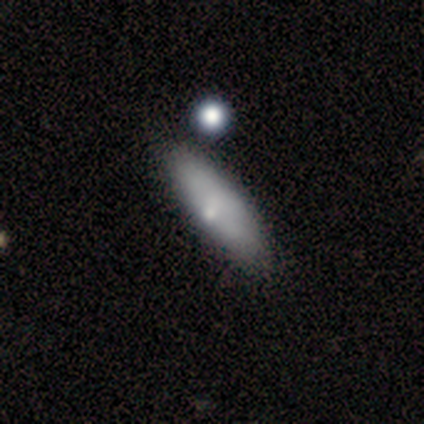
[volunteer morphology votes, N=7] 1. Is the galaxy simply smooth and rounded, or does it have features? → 86% smooth, 14% star or artifact, 0% featured or disk.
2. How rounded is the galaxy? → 67% in between, 33% cigar-shaped, 0% round.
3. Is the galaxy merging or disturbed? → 83% none, 17% minor disturbance, 0% major disturbance, 0% merger.